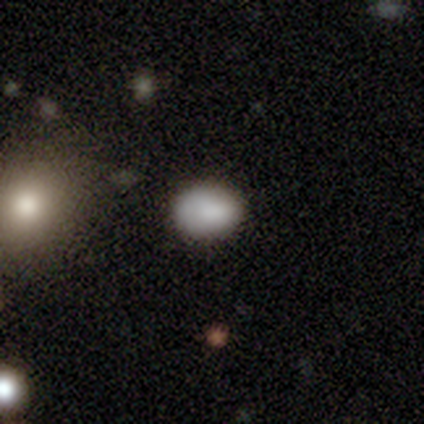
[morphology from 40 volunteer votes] Smooth or featured?
  - smooth: 90% *
  - star or artifact: 8%
  - featured or disk: 2%
How rounded?
  - in between: 86% *
  - round: 14%
  - cigar-shaped: 0%
Merging?
  - none: 54% *
  - minor disturbance: 11%
  - merger: 5%
  - major disturbance: 3%